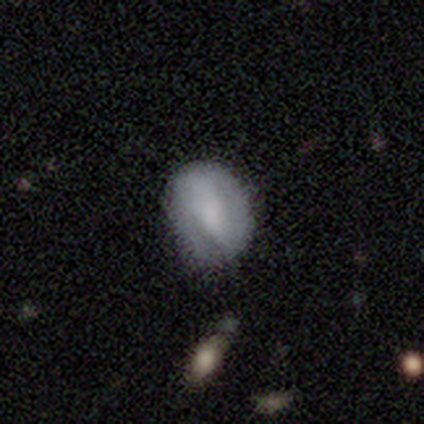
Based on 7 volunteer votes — A smooth galaxy with no disk features (57%) that is in between round and cigar-shaped (75%).

Vote fractions:
- Smooth or featured? smooth: 57% / featured or disk: 43% / star or artifact: 0%
- How rounded? in between: 75% / round: 25% / cigar-shaped: 0%
- Merging? none: 71% / minor disturbance: 14% / major disturbance: 14% / merger: 0%